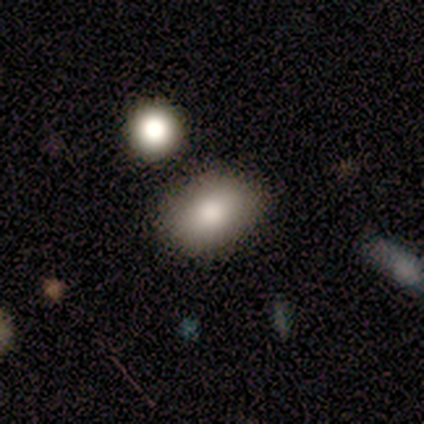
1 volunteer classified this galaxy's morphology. This appears to be a smooth galaxy with no disk features (100%) that is in between round and cigar-shaped (100%). Merging: none (100%).